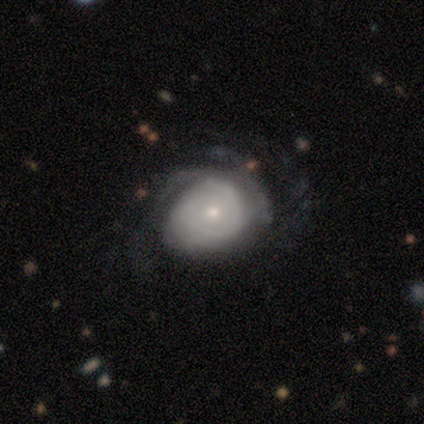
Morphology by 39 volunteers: Smooth or featured? featured or disk (85%)
Edge-on disk? no (97%)
Bar? no (72%)
Spiral arms? yes (100%)
Spiral winding? tight (69%)
Spiral arm count? can't tell (41%)
Bulge size? small (62%)
Merging? none (46%)